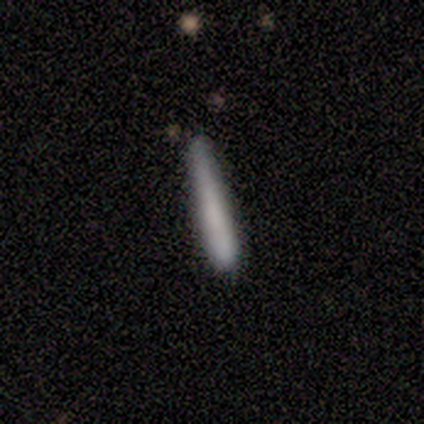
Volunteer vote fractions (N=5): Q: Smooth or featured?
A: star or artifact (60%); runner-up: smooth (40%)